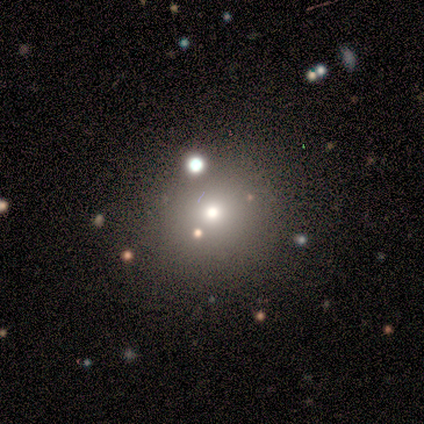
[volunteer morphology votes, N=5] type=smooth (80%); roundness=round (75%); merging=none (75%).